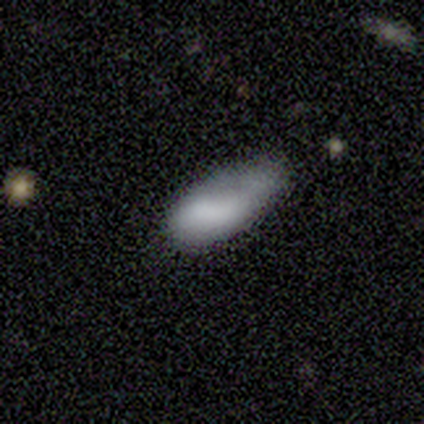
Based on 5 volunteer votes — This is likely a featured or disk galaxy (60%). It is clearly not viewed edge-on (100%). Bar: likely no (67%). Spiral arm pattern: likely no (67%). Central bulge: likely none (67%). Merging: likely minor disturbance (60%).